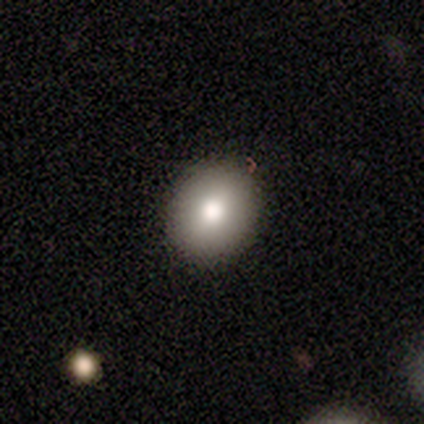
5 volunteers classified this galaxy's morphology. A smooth galaxy with no disk features (80%) that is round (75%).

Vote fractions:
- Smooth or featured? smooth: 80% / star or artifact: 20% / featured or disk: 0%
- How rounded? round: 75% / in between: 25% / cigar-shaped: 0%
- Merging? none: 100% / minor disturbance: 0% / major disturbance: 0% / merger: 0%